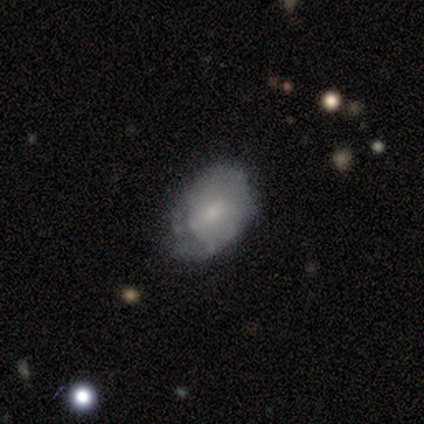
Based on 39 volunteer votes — Smooth or featured?
  - smooth: 59% *
  - featured or disk: 38%
  - star or artifact: 3%
How rounded?
  - in between: 96% *
  - round: 4%
  - cigar-shaped: 0%
Merging?
  - minor disturbance: 50% *
  - none: 47%
  - major disturbance: 3%
  - merger: 0%